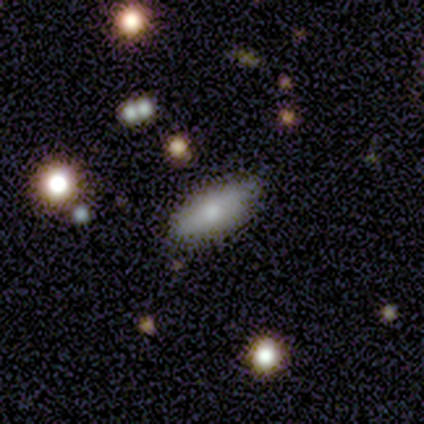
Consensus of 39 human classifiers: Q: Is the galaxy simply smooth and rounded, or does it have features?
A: smooth — 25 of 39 (64%).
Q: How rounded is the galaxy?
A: in between — 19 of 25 (76%).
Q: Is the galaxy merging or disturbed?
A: none — 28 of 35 (80%).